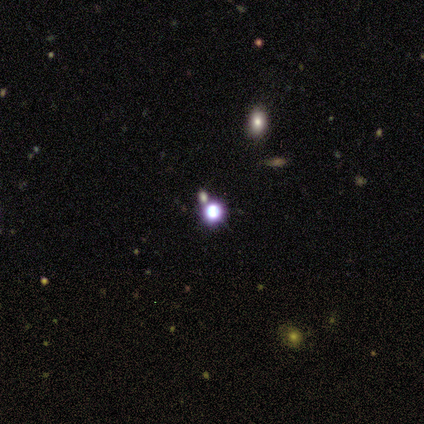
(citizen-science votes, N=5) A star or artifact, not a galaxy (60%).